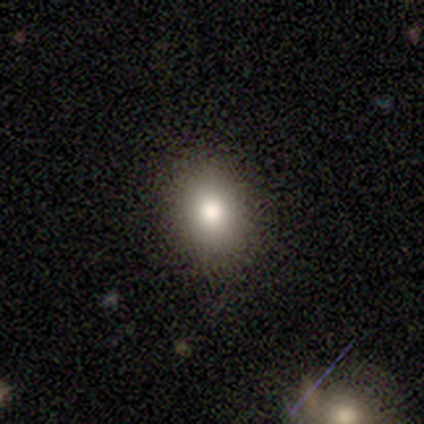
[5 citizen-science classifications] smooth-or-featured: smooth: 80% | featured or disk: 20% | star or artifact: 0%
  how-rounded: round: 75% | in between: 25% | cigar-shaped: 0%
  merging: none: 100% | minor disturbance: 0% | major disturbance: 0% | merger: 0%